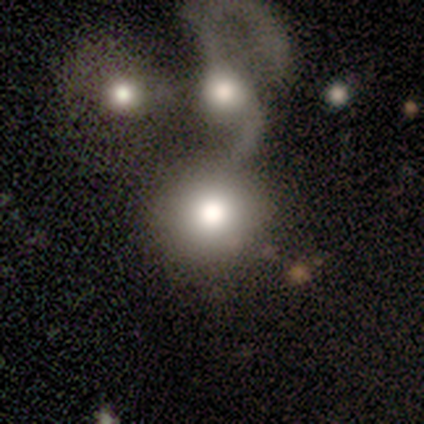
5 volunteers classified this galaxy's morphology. smooth_or_featured: smooth (p=0.60) [alt: featured or disk p=0.20]
how_rounded: round (p=0.67) [alt: in between p=0.33]
merging: none (p=0.25) [tied with: minor disturbance p=0.25, major disturbance p=0.25, merger p=0.25]